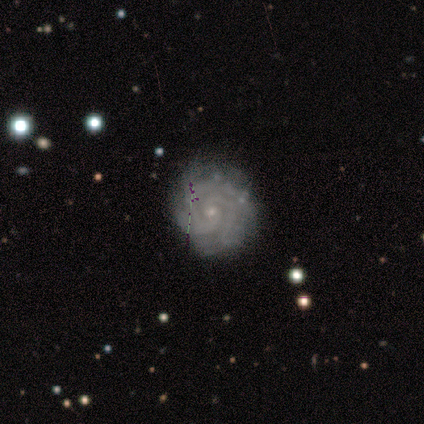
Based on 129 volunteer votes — featured or disk 92%, smooth 5%, star or artifact 3%. Down the decision tree: edge-on disk — no (98%); bar — no (85%); spiral arms — yes (97%); spiral arm count — 2 (30%); spiral winding — tight (80%); bulge size — small (87%); merging — none (78%).